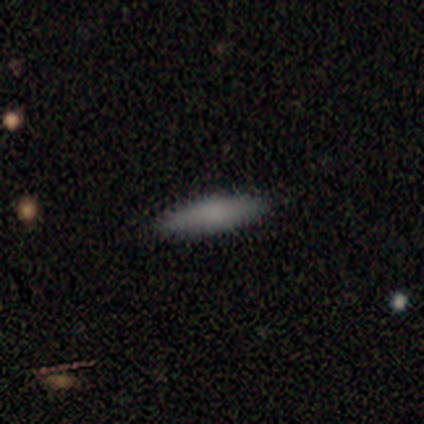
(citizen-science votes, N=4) A smooth galaxy with no disk features (75%) that is cigar-shaped (67%).

Vote fractions:
- Smooth or featured? smooth: 75% / featured or disk: 25% / star or artifact: 0%
- How rounded? cigar-shaped: 67% / in between: 33% / round: 0%
- Merging? none: 100% / minor disturbance: 0% / major disturbance: 0% / merger: 0%